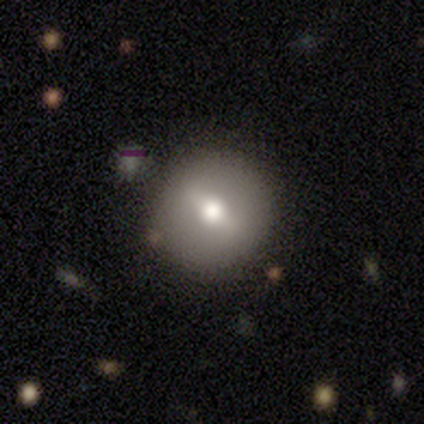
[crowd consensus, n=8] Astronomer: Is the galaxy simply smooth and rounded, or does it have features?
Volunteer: smooth — 62%.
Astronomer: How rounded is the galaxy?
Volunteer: round — 100%.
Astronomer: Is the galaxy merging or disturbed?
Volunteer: none — 71%.